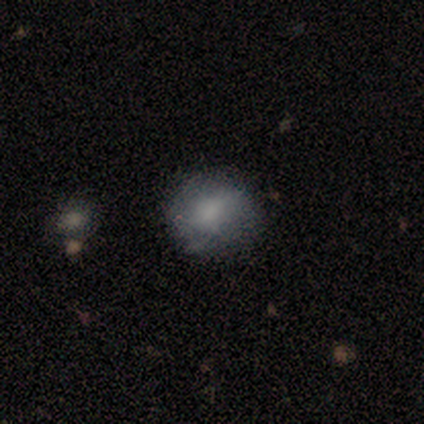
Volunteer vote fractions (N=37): This is possibly a smooth galaxy (59%). How rounded: clearly round (86%). Merging: likely none (78%).